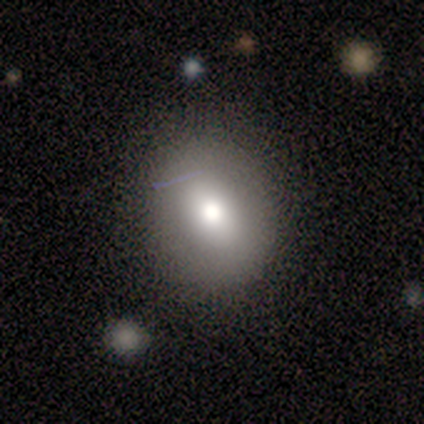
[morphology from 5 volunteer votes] smooth_or_featured: smooth (p=0.80) [alt: star or artifact p=0.20]
how_rounded: in between (p=1.00)
merging: none (p=0.50) [tied with: major disturbance p=0.50]